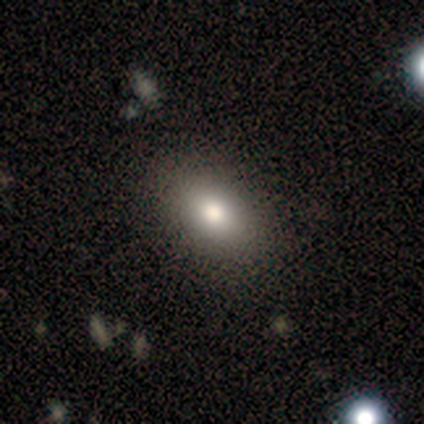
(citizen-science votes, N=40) A smooth galaxy with no disk features (95%) that is in between round and cigar-shaped (92%). Merging: none (72%).